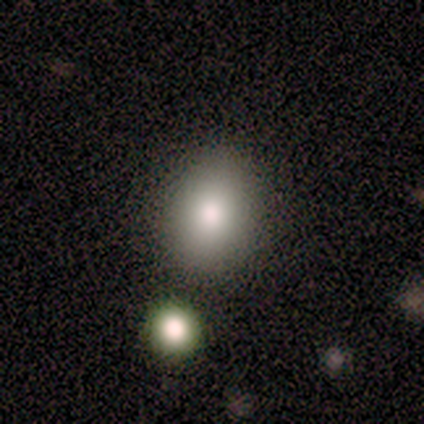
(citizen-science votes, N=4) Smooth or featured: smooth — 100%
How rounded: round — 50% (tied with in between — 50%)
Merging: none — 75% (minor disturbance — 25%)